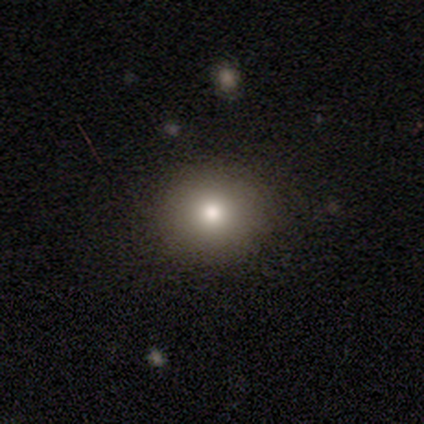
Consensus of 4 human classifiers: smooth_or_featured: smooth (p=0.75) [alt: star or artifact p=0.25]
how_rounded: round (p=1.00)
merging: none (p=1.00)